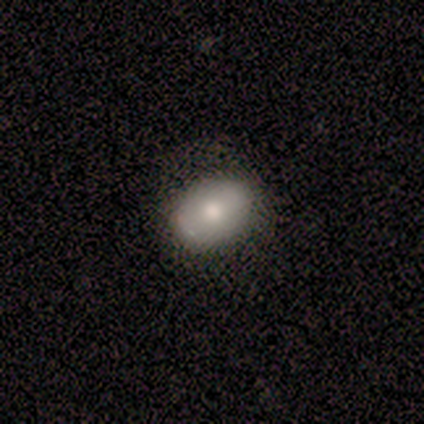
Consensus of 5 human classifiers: A smooth galaxy with no disk features (100%) that is in between round and cigar-shaped (60%).

Vote fractions:
- Smooth or featured? smooth: 100% / featured or disk: 0% / star or artifact: 0%
- How rounded? in between: 60% / round: 40% / cigar-shaped: 0%
- Merging? none: 100% / minor disturbance: 0% / major disturbance: 0% / merger: 0%